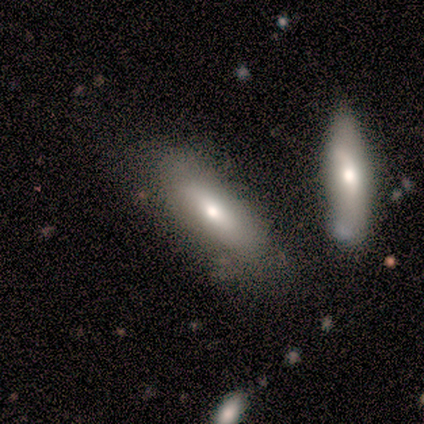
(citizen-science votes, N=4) This is likely a smooth galaxy (75%). How rounded: likely in between (67%). Merging: likely none (75%).